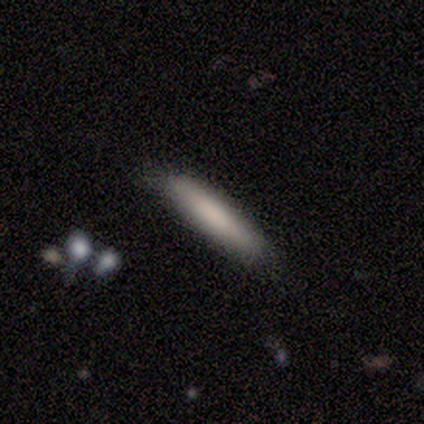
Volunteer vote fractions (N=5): smooth-or-featured: smooth: 100% | featured or disk: 0% | star or artifact: 0%
  how-rounded: cigar-shaped: 100% | round: 0% | in between: 0%
  merging: none: 60% | minor disturbance: 40% | major disturbance: 0% | merger: 0%